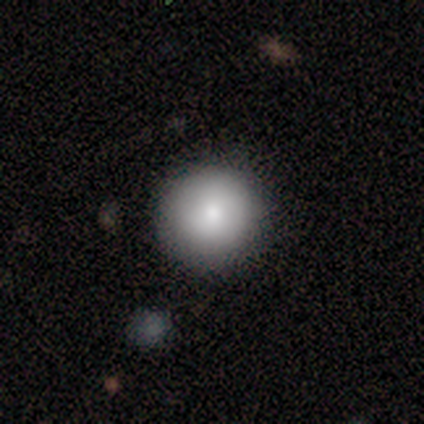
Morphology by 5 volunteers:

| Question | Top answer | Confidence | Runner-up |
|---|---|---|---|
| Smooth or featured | smooth | 100% | — |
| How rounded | round | 100% | — |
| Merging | none | 100% | — |